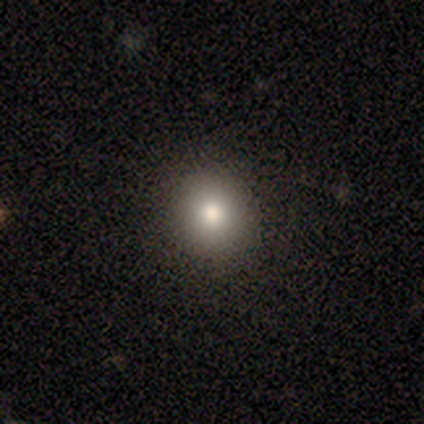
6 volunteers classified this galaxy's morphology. Overall: smooth (100%). How rounded: round (67%; in between 33%). Merging: none (100%).